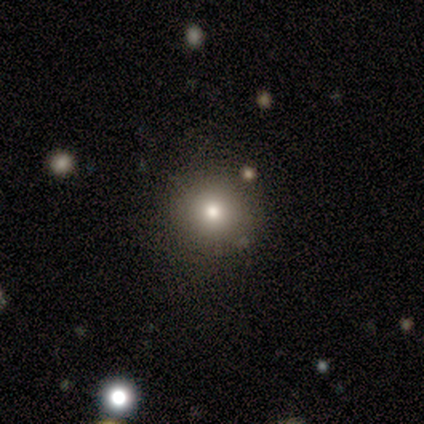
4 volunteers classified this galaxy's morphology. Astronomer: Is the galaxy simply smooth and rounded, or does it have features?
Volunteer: smooth — 75%.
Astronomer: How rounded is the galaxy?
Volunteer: round — 100%.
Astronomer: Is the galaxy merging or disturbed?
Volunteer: none — 100%.